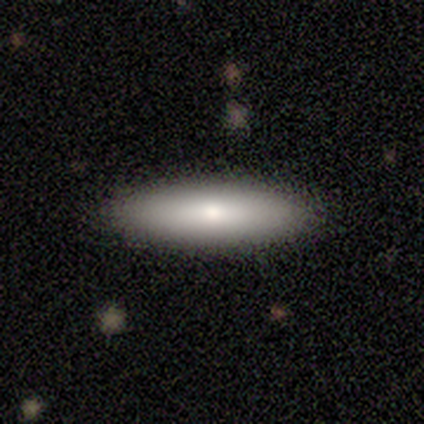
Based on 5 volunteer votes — A smooth galaxy with no disk features (80%) that is cigar-shaped (100%).

Vote fractions:
- Smooth or featured? smooth: 80% / featured or disk: 20% / star or artifact: 0%
- How rounded? cigar-shaped: 100% / round: 0% / in between: 0%
- Merging? none: 100% / minor disturbance: 0% / major disturbance: 0% / merger: 0%